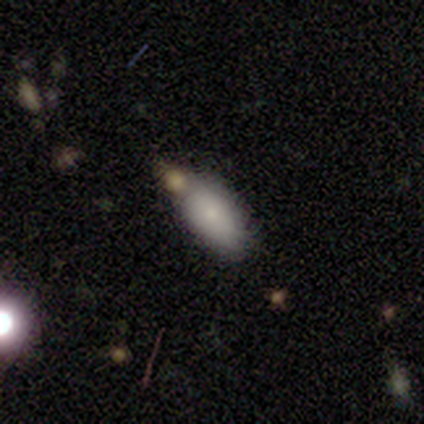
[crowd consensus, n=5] A smooth galaxy with no disk features (80%) that is in between round and cigar-shaped (100%). Merging: none (40%, tied with minor disturbance).